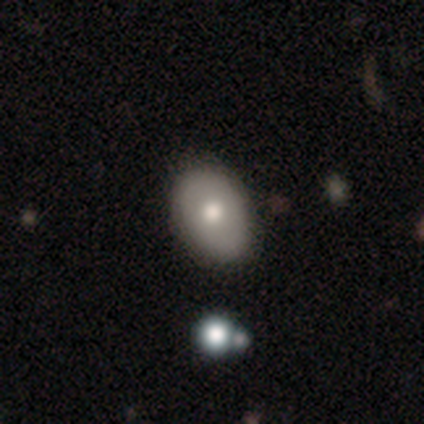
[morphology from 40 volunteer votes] Smooth or featured? 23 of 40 (57%) said smooth. How rounded? 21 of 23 (91%) said in between. Merging? 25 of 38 (66%) said none.